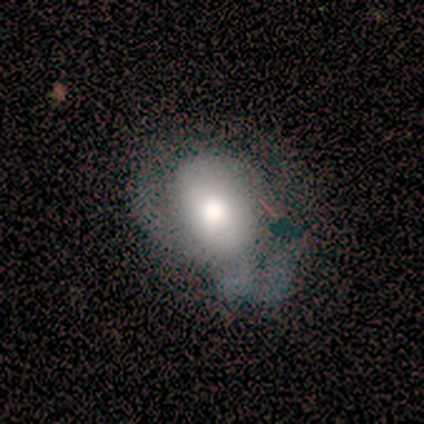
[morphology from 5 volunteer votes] Smooth or featured? smooth (60%)
How rounded? round (67%)
Merging? none (40%, tied with minor disturbance)